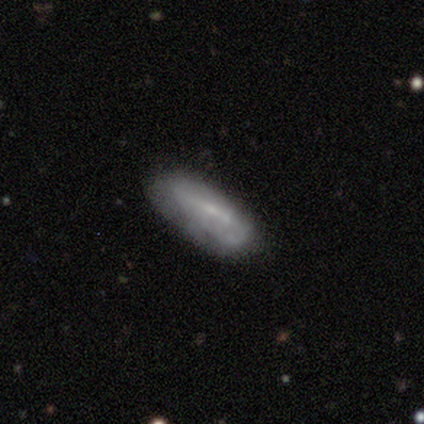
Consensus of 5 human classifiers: smooth 80%, featured or disk 20%, star or artifact 0%. Down the decision tree: how rounded — cigar-shaped (75%); merging — none (100%).